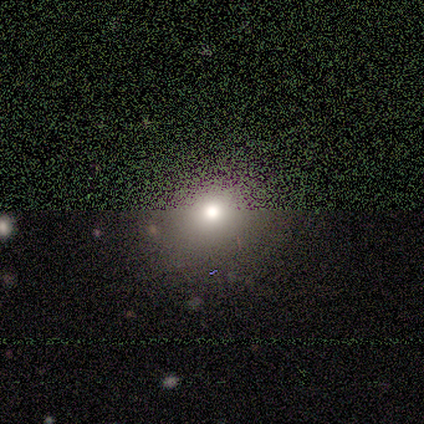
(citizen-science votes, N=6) smooth-or-featured: star or artifact: 50% | smooth: 33% | featured or disk: 17%